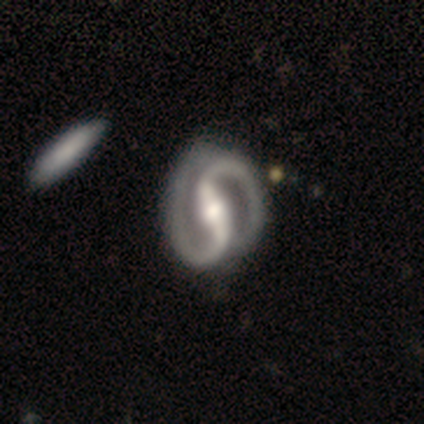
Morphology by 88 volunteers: This appears to be a featured or disk galaxy (93%) with a strong bar (88%), 2 (100%) medium (56%) spiral arms (100%) and a moderate central bulge (63%). Merging: none (64%).